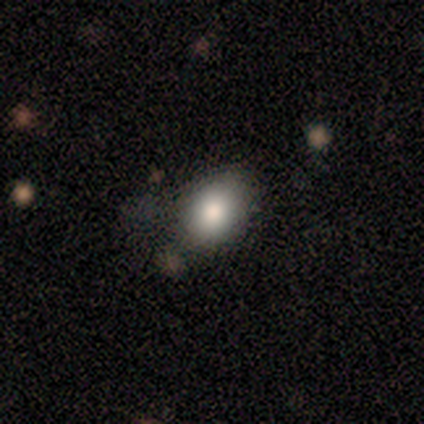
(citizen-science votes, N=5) Morphology: type=smooth (100%); roundness=in between (100%); merging=none (80%).